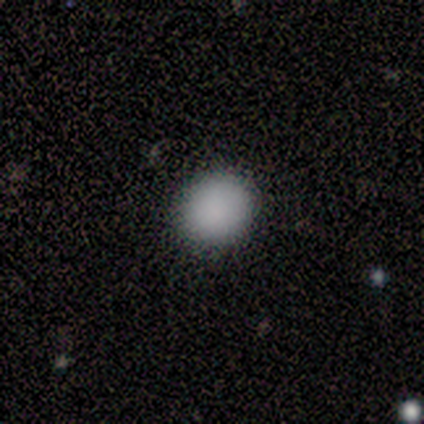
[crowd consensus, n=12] smooth 92%, star or artifact 8%, featured or disk 0%. Down the decision tree: how rounded — round (82%); merging — none (100%).